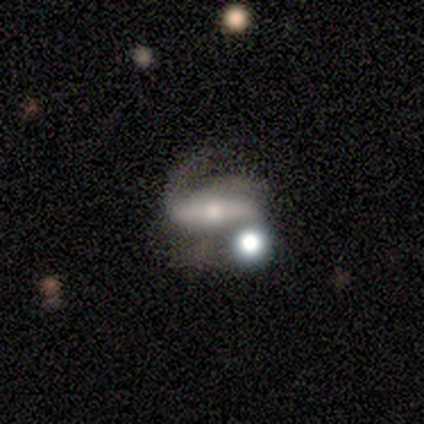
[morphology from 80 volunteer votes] Volunteers were most divided on "merging": none: 36%, minor disturbance: 26%, merger: 22%, major disturbance: 16%. More confident: spiral arms — yes (88%); smooth or featured — featured or disk (86%); edge-on disk — no (83%); bar — strong (70%); spiral arm count — 2 (70%); bulge size — moderate (53%); spiral winding — medium (50%).